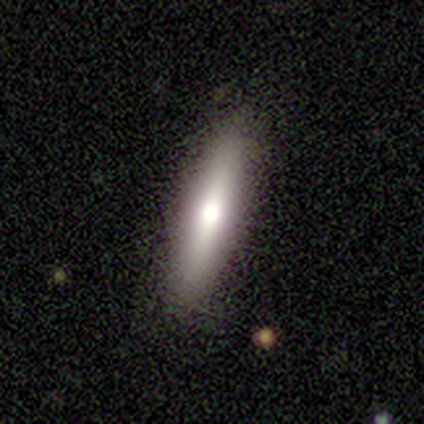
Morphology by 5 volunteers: Overall: smooth (60%; featured or disk 40%). How rounded: cigar-shaped (100%). Merging: none (100%).